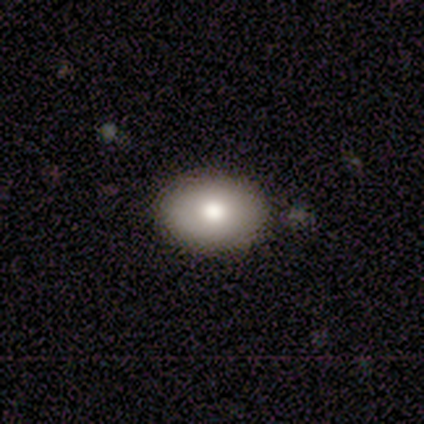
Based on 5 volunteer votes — Overall: smooth (80%). How rounded: in between (100%). Merging: none (100%).